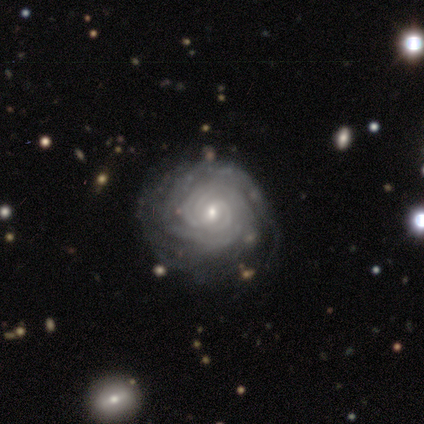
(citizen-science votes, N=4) Q: Smooth or featured?
A: featured or disk (75%); runner-up: smooth (25%)
Q: Edge-on disk?
A: no (100%)
Q: Bar?
A: no (67%); runner-up: strong (33%)
Q: Spiral arms?
A: yes (67%); runner-up: no (33%)
Q: Spiral winding?
A: tight (100%)
Q: Spiral arm count?
A: 3 (50%); tied with: more than 4 (50%)
Q: Bulge size?
A: small (67%); runner-up: moderate (33%)
Q: Merging?
A: none (75%); runner-up: minor disturbance (25%)